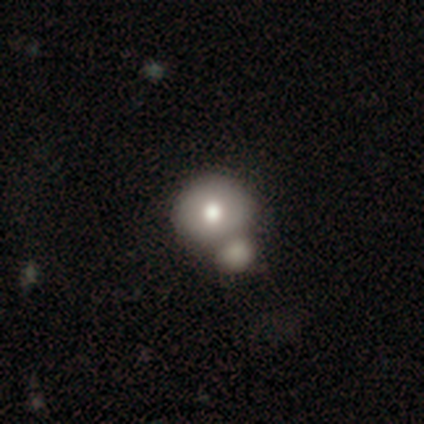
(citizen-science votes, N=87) Q: Smooth or featured?
A: smooth (71%); runner-up: featured or disk (20%)
Q: How rounded?
A: round (87%); runner-up: in between (13%)
Q: Merging?
A: merger (49%); runner-up: none (41%)